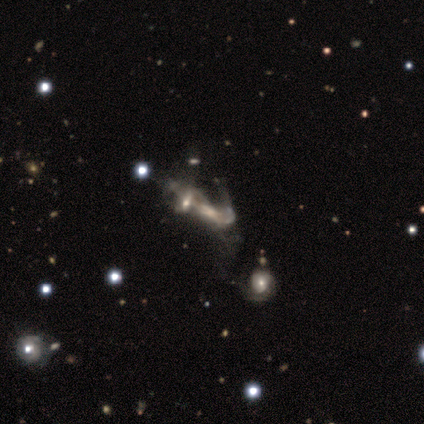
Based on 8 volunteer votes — Overall: featured or disk (62%; smooth 25%). Edge-on disk: no (100%). Bar: no (80%). Spiral arms: yes (60%; no 40%). Spiral arm count: can't tell (67%; 1 33%). Spiral winding: loose (100%). Bulge size: moderate (40%, tied with small). Merging: merger (57%; major disturbance 43%).